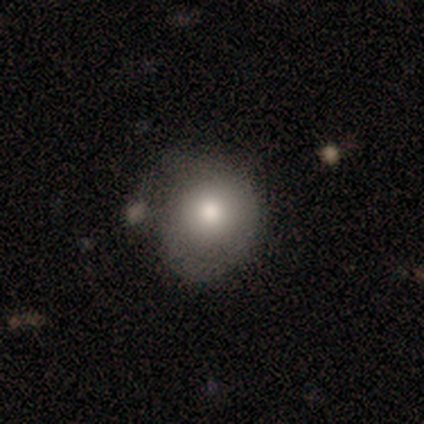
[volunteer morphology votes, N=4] smooth_or_featured: smooth (p=0.75) [alt: featured or disk p=0.25]
how_rounded: round (p=1.00)
merging: none (p=0.50) [tied with: minor disturbance p=0.50]